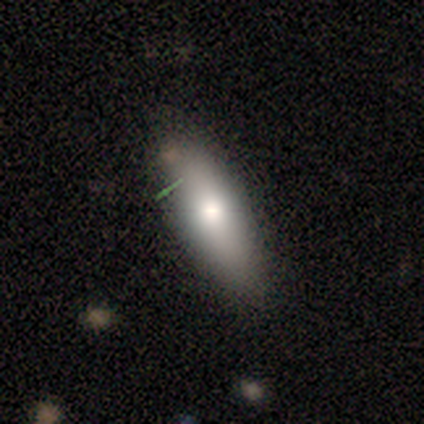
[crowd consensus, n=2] Consensus on every question: smooth or featured — smooth (100%); how rounded — in between (100%); merging — none (100%).